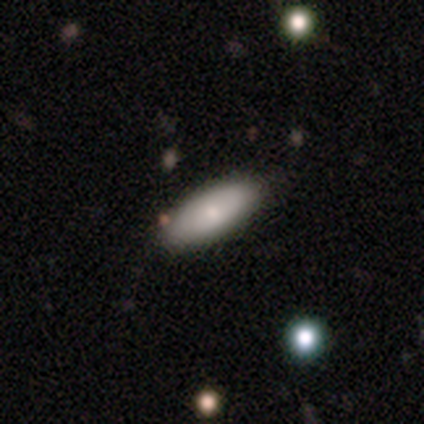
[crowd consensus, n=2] Morphology: type=smooth (50%, tied with featured or disk); roundness=cigar-shaped (100%); merging=none (100%).